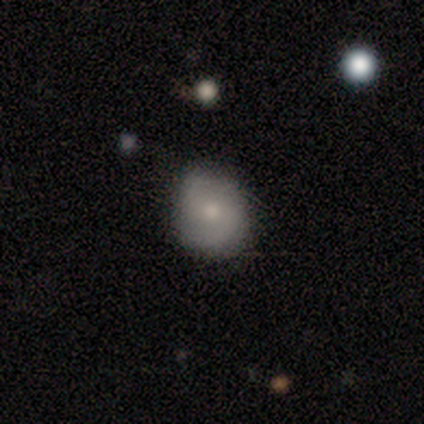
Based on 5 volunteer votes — Overall: featured or disk (60%; smooth 20%). Edge-on disk: no (100%). Bar: no (100%). Spiral arms: yes (100%). Spiral arm count: 2 (100%). Spiral winding: tight (33%, tied with medium and loose). Bulge size: large (33%, tied with moderate and none). Merging: none (100%).